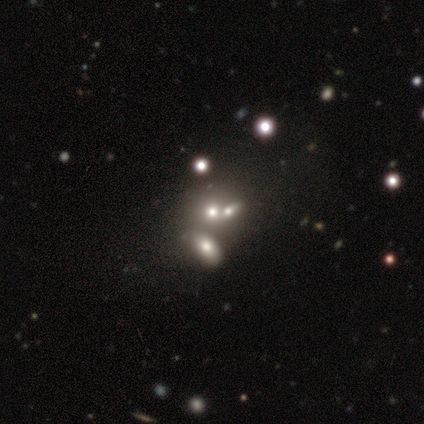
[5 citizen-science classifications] Morphology: type=smooth (100%); roundness=round (80%); merging=none (60%).